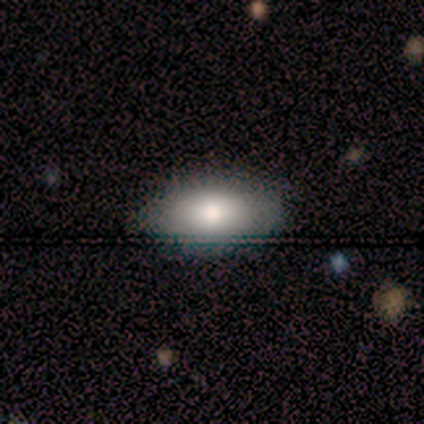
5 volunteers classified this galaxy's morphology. smooth-or-featured: smooth: 80% | featured or disk: 20% | star or artifact: 0%
  how-rounded: in between: 100% | round: 0% | cigar-shaped: 0%
  merging: none: 100% | minor disturbance: 0% | major disturbance: 0% | merger: 0%